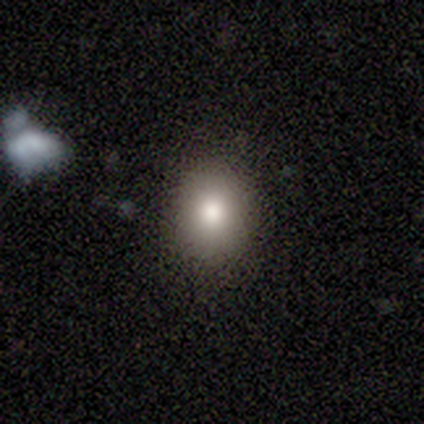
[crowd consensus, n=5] smooth-or-featured: smooth: 100% | featured or disk: 0% | star or artifact: 0%
  how-rounded: round: 80% | in between: 20% | cigar-shaped: 0%
  merging: none: 60% | minor disturbance: 40% | major disturbance: 0% | merger: 0%